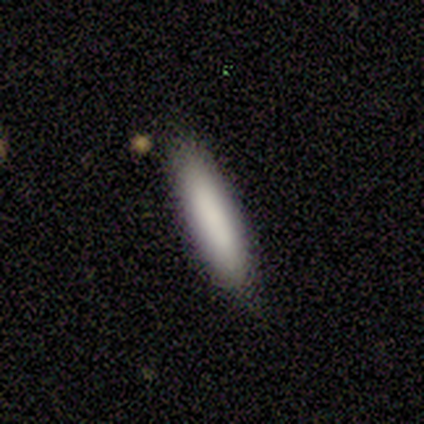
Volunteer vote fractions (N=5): A smooth galaxy with no disk features (100%) that is cigar-shaped (100%). Merging: none (60%).